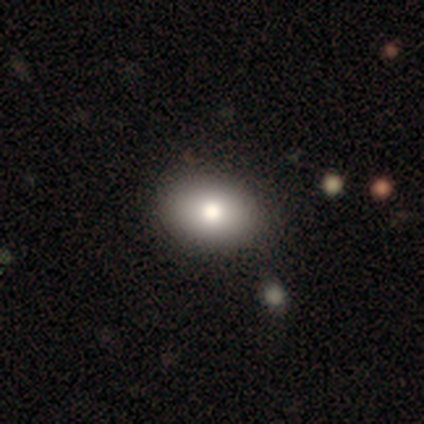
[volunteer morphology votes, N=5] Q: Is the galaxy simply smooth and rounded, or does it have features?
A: featured or disk — 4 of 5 (80%).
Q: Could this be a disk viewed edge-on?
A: no — 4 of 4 (100%).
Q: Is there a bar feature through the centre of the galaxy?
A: no — 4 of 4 (100%).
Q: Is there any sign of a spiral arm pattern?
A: no — 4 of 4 (100%).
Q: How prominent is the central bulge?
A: moderate — 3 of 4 (75%).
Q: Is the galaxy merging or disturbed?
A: none — 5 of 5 (100%).